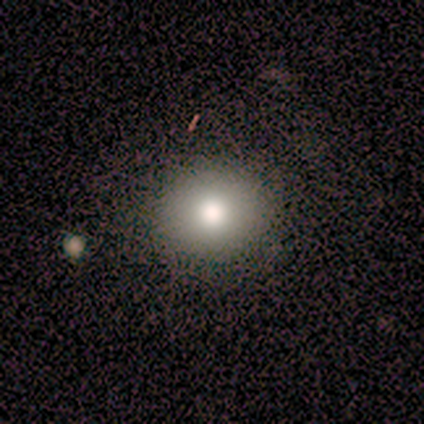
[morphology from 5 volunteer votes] Smooth or featured: smooth — 80% (featured or disk — 20%)
How rounded: round — 50% (tied with in between — 50%)
Merging: none — 100%